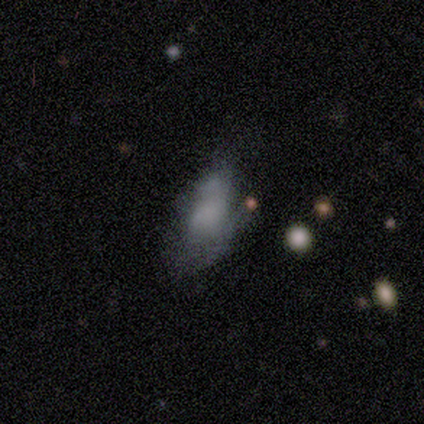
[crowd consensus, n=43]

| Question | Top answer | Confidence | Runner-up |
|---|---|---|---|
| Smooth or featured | smooth | 60% | featured or disk (37%) |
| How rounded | in between | 92% | round (4%) |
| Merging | none | 33% | tied: minor disturbance (33%) |